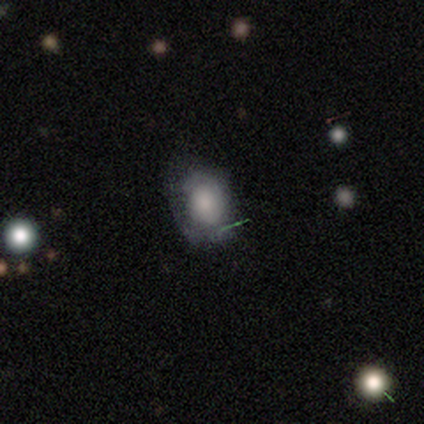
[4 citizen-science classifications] Smooth or featured: smooth — 100%
How rounded: round — 50% (tied with in between — 50%)
Merging: none — 100%